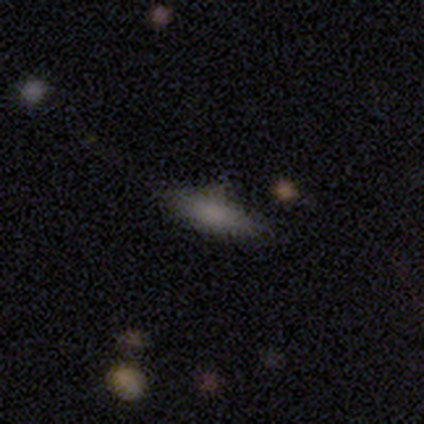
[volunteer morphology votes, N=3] Smooth or featured: smooth — 67% (featured or disk — 33%)
How rounded: in between — 100%
Merging: none — 67% (minor disturbance — 33%)